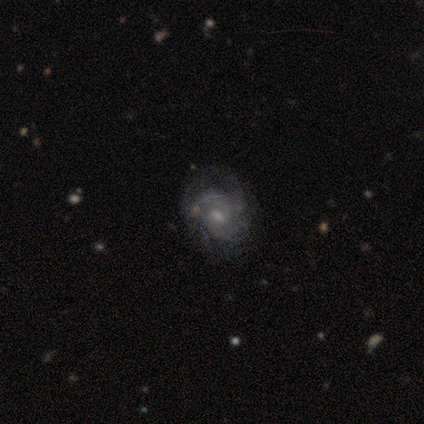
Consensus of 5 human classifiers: Smooth or featured? 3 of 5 (60%) said featured or disk. Edge-on disk? 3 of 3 (100%) said no. Bar? 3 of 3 (100%) said weak. Spiral arms? 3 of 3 (100%) said yes. Spiral winding? 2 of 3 (67%) said tight. Spiral arm count? 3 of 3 (100%) said 3. Bulge size? 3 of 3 (100%) said small. Merging? 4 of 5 (80%) said none.